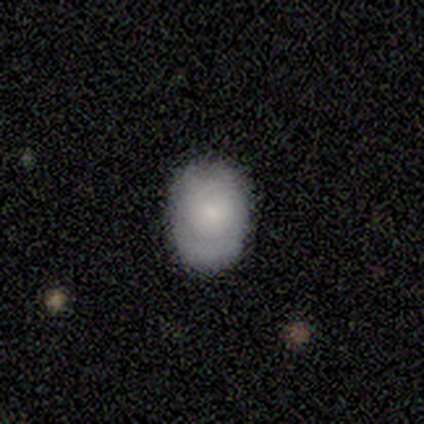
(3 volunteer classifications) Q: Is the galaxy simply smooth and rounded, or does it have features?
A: smooth — 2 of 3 (67%).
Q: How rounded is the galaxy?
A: in between — 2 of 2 (100%).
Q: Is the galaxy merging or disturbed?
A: none — 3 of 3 (100%).